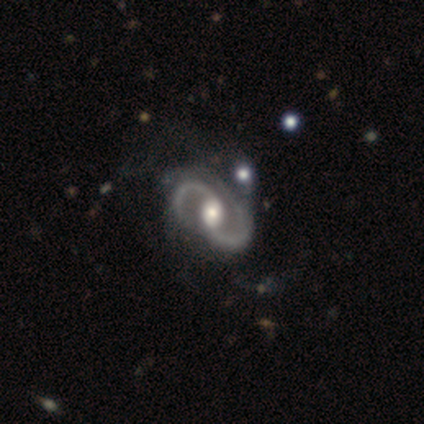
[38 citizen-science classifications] This is clearly a featured or disk galaxy (100%). It is clearly not viewed edge-on (100%). Bar: possibly weak (47%). Spiral arm pattern: clearly yes (100%). Spiral arm count: clearly 2 (100%). Spiral winding: likely medium (63%). Central bulge: likely moderate (74%). Merging: marginally none (45%).